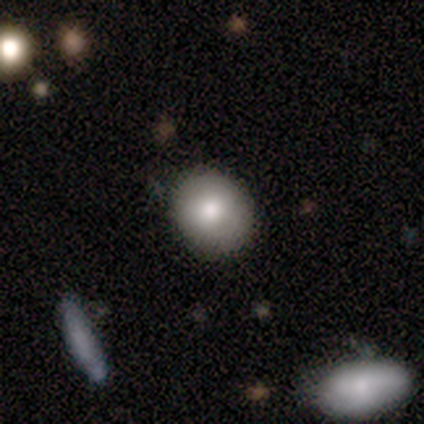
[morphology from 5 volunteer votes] Q: Smooth or featured?
A: smooth (100%)
Q: How rounded?
A: round (100%)
Q: Merging?
A: none (80%); runner-up: minor disturbance (20%)